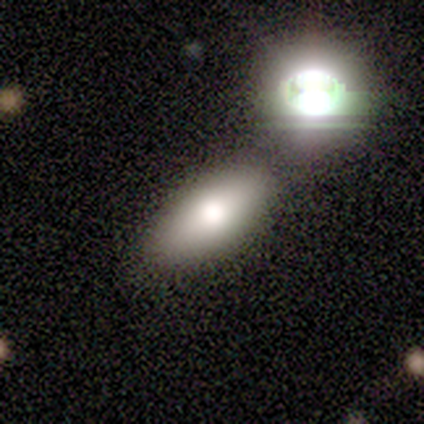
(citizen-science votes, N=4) Smooth or featured?
  - smooth: 75% *
  - star or artifact: 25%
  - featured or disk: 0%
How rounded?
  - in between: 100% *
  - round: 0%
  - cigar-shaped: 0%
Merging?
  - none: 67% *
  - minor disturbance: 33%
  - major disturbance: 0%
  - merger: 0%